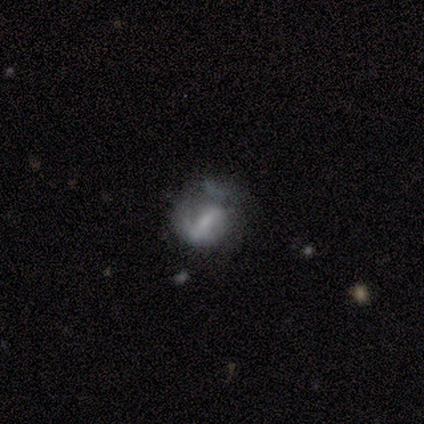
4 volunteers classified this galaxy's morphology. smooth-or-featured: star or artifact: 50% | smooth: 25% | featured or disk: 25%